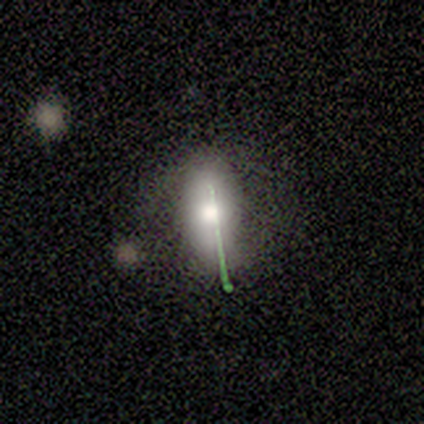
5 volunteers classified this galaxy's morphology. A smooth galaxy with no disk features (60%) that is in between round and cigar-shaped (100%).

Vote fractions:
- Smooth or featured? smooth: 60% / featured or disk: 20% / star or artifact: 20%
- How rounded? in between: 100% / round: 0% / cigar-shaped: 0%
- Merging? minor disturbance: 75% / none: 25% / major disturbance: 0% / merger: 0%